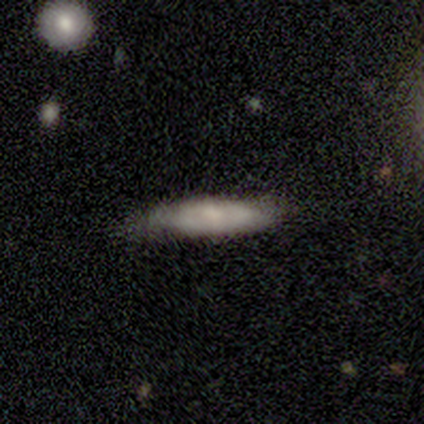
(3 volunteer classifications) Smooth or featured? smooth (67%)
How rounded? cigar-shaped (100%)
Merging? none (33%, tied with minor disturbance and major disturbance)